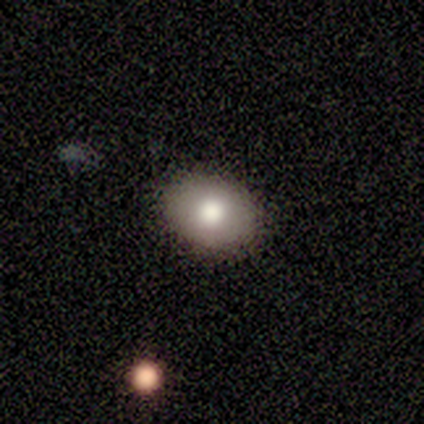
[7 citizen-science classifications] smooth-or-featured: smooth: 86% | featured or disk: 14% | star or artifact: 0%
  how-rounded: in between: 83% | round: 17% | cigar-shaped: 0%
  merging: none: 86% | minor disturbance: 14% | major disturbance: 0% | merger: 0%